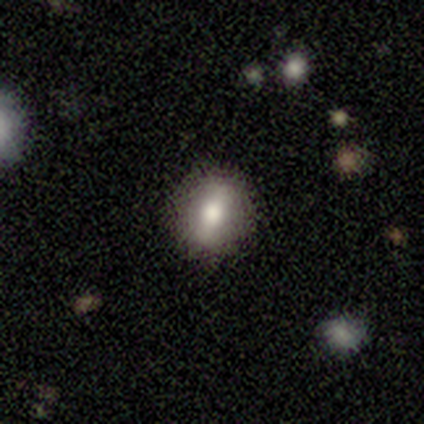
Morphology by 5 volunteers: type=smooth (60%); roundness=round (100%); merging=none (100%).